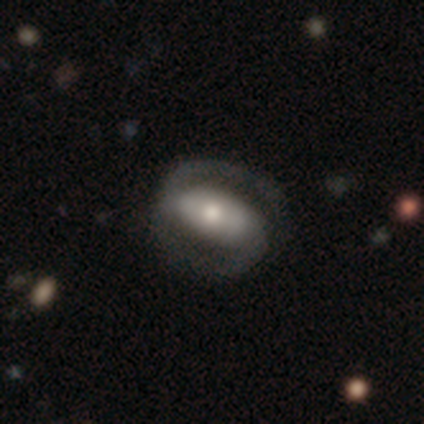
Smooth or featured: featured or disk — 92% (smooth — 5%)
Edge-on disk: no — 97% (yes — 3%)
Bar: strong — 56% (no — 29%)
Spiral arms: yes — 94% (no — 6%)
Spiral winding: medium — 47% (tight — 38%)
Spiral arm count: 2 — 97% (1 — 3%)
Bulge size: moderate — 68% (large — 21%)
Merging: none — 73% (major disturbance — 5%)